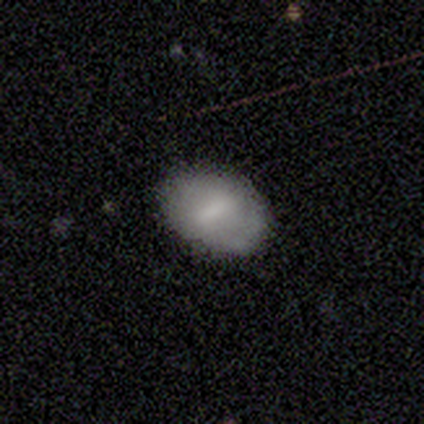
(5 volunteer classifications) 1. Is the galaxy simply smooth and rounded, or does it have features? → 60% smooth, 20% featured or disk, 20% star or artifact.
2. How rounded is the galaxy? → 100% in between, 0% round, 0% cigar-shaped.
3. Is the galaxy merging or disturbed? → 75% none, 25% minor disturbance, 0% major disturbance, 0% merger.